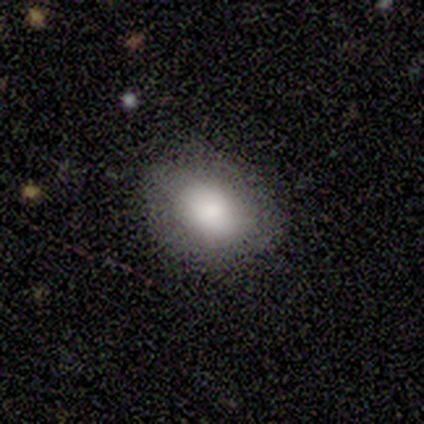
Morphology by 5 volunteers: Volunteers were most divided on "smooth or featured": smooth: 80%, featured or disk: 20%, star or artifact: 0%. More confident: how rounded — in between (100%); merging — none (80%).